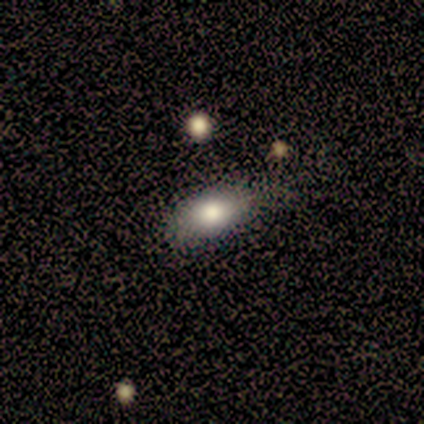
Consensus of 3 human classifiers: Smooth or featured: smooth — 100%
How rounded: in between — 100%
Merging: none — 67% (minor disturbance — 33%)